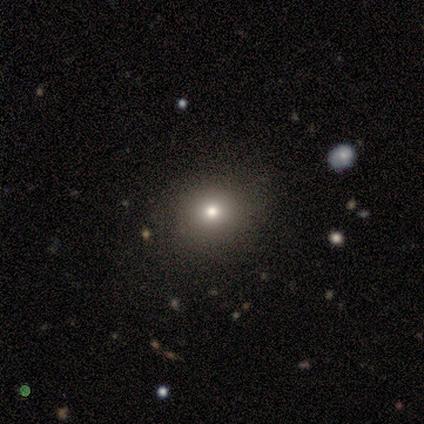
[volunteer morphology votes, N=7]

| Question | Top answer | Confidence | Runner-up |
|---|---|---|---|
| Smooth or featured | smooth | 57% | star or artifact (29%) |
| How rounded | round | 75% | in between (25%) |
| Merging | none | 80% | major disturbance (20%) |